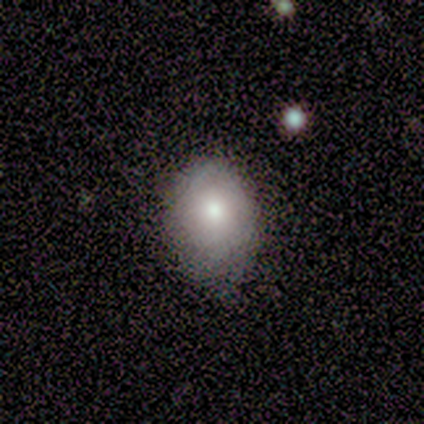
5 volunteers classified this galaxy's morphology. A smooth galaxy with no disk features (100%) that is in between round and cigar-shaped (80%). Merging: none (60%).